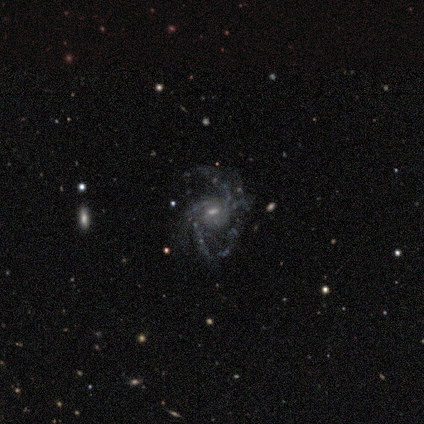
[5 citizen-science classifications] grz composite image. It shows a featured or disk galaxy (100%) with a weak bar (100%), 3 (50%, tied with 4) medium (50%, tied with loose) spiral arms (80%) and a small central bulge (60%). Merging: major disturbance (60%).